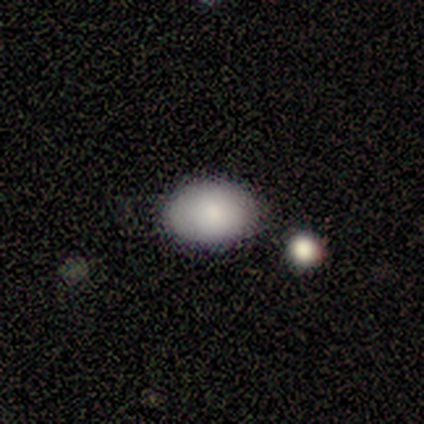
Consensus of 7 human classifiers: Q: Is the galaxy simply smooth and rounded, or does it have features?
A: smooth — 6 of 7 (86%).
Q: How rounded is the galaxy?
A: in between — 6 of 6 (100%).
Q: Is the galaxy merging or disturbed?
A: none — 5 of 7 (71%).